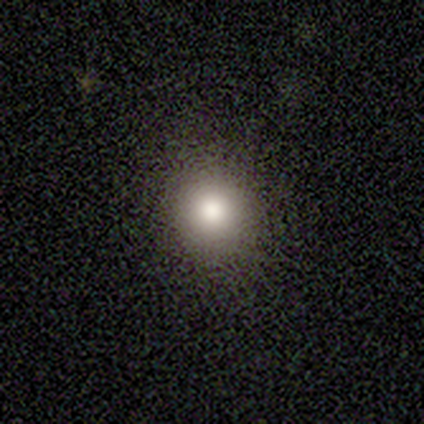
This is clearly a smooth galaxy (100%). How rounded: clearly round (100%). Merging: clearly none (80%).